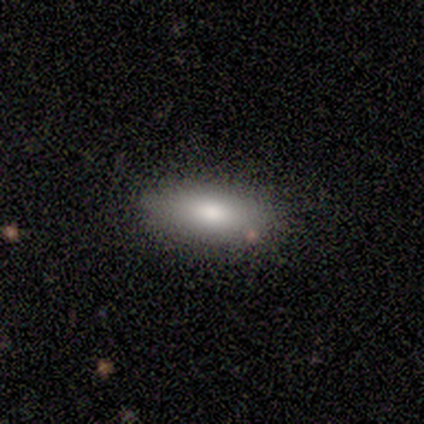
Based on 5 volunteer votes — Overall: smooth (100%). How rounded: in between (80%). Merging: none (60%; minor disturbance 20%).